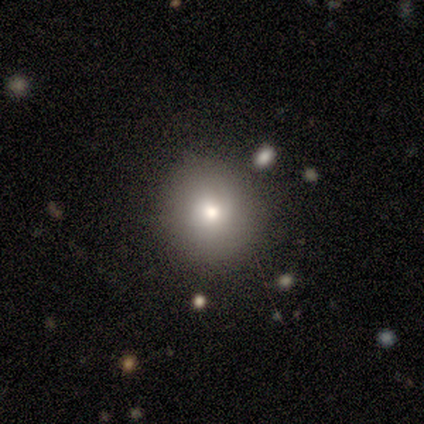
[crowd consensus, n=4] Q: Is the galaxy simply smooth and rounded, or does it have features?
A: smooth — 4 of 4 (100%).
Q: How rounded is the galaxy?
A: round — 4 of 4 (100%).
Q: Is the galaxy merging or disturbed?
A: none — 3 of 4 (75%).